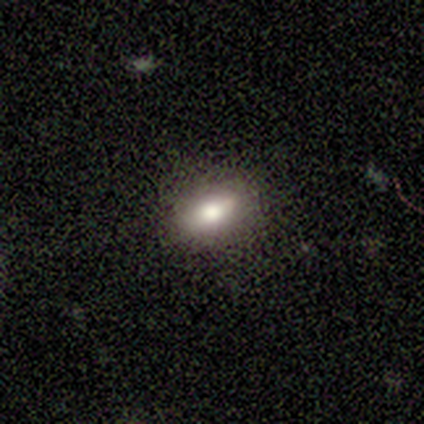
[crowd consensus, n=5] A featured or disk galaxy (60%) with a weak bar (50%, tied with no), no spiral arms (100%) and a large central bulge (50%, tied with small). Merging: none (80%).